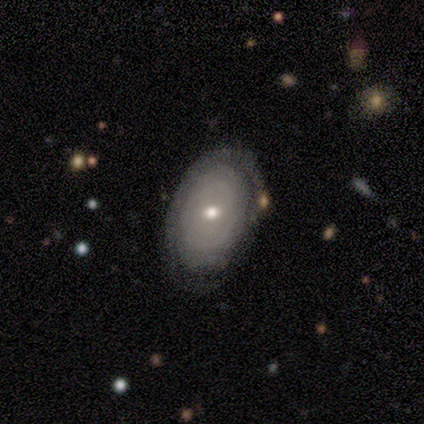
A featured or disk galaxy (100%) with no bar (100%), no spiral arms (60%) and a small central bulge (60%). Merging: none (80%).